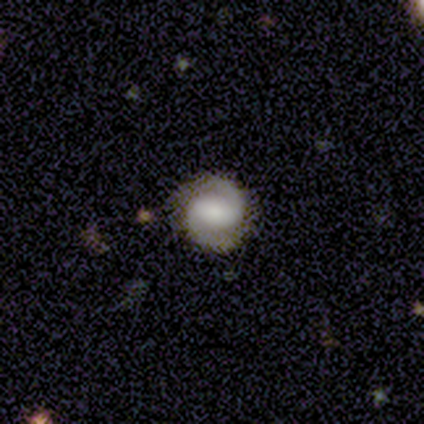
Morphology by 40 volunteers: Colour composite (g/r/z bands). It shows a featured or disk galaxy (82%) with a strong bar (45%, tied with weak), 2 (100%) tight (53%) spiral arms (97%) and a moderate central bulge (42%). Merging: none (82%).